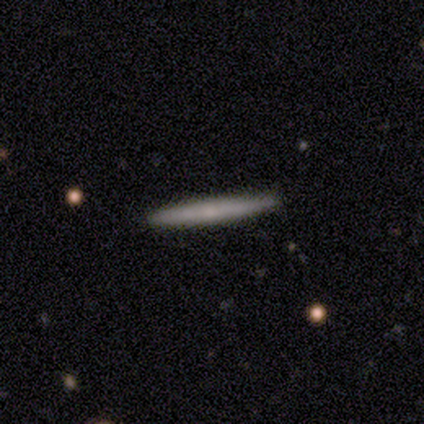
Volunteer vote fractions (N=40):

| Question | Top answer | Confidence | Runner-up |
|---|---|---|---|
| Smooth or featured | featured or disk | 55% | smooth (42%) |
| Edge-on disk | yes | 91% | no (9%) |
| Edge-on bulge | none | 70% | rounded (30%) |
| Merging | none | 92% | minor disturbance (5%) |